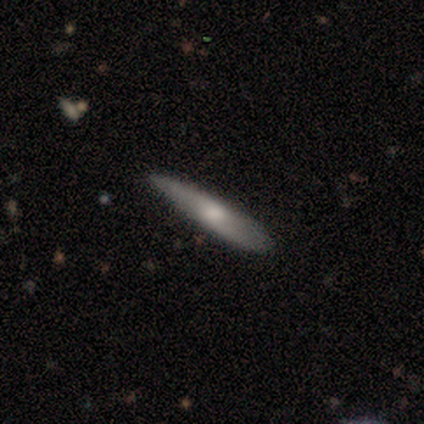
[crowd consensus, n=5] A featured or disk galaxy (80%) viewed edge-on (100%) with no central bulge (50%, tied with rounded).

Vote fractions:
- Smooth or featured? featured or disk: 80% / smooth: 20% / star or artifact: 0%
- Edge-on disk? yes: 100% / no: 0%
- Edge-on bulge? none: 50% (tied) / rounded: 50% (tied) / boxy: 0%
- Merging? none: 60% / minor disturbance: 40% / major disturbance: 0% / merger: 0%